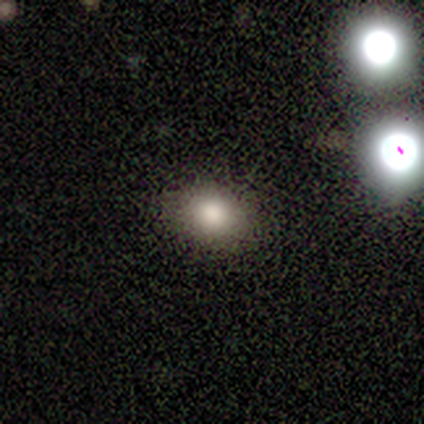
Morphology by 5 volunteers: Overall: smooth (80%). How rounded: in between (75%). Merging: none (50%, tied with minor disturbance).